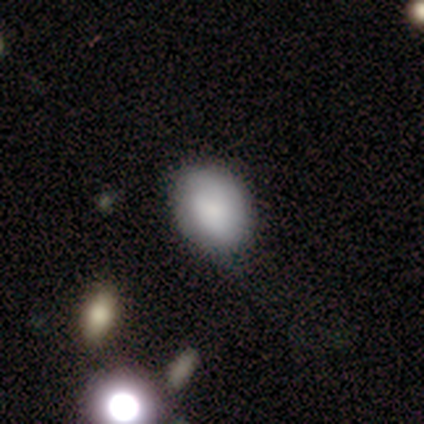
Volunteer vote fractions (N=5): Morphology: type=smooth (80%); roundness=in between (75%); merging=none (75%).